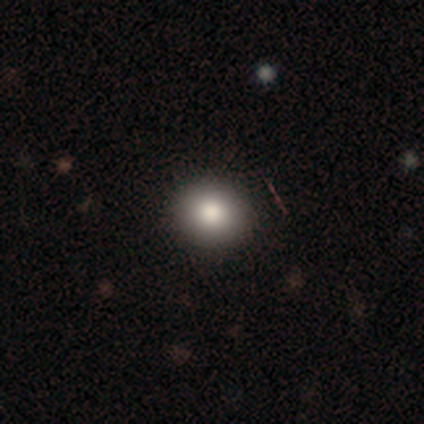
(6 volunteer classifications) A smooth galaxy with no disk features (83%) that is round (80%). Merging: none (100%).